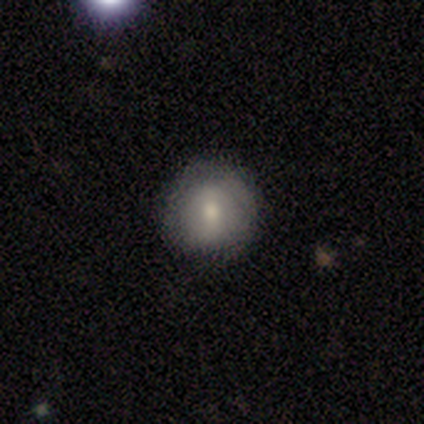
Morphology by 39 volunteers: Q: Smooth or featured?
A: smooth (59%); runner-up: featured or disk (36%)
Q: How rounded?
A: round (96%); runner-up: in between (4%)
Q: Merging?
A: none (86%); runner-up: minor disturbance (8%)